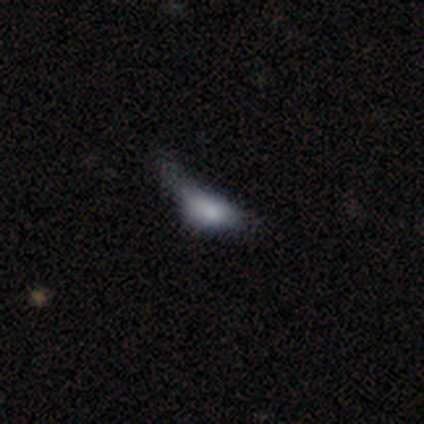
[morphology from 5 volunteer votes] Smooth or featured: featured or disk — 60% (smooth — 40%)
Edge-on disk: yes — 67% (no — 33%)
Edge-on bulge: boxy — 50% (tied with none — 50%)
Merging: major disturbance — 60% (none — 20%)